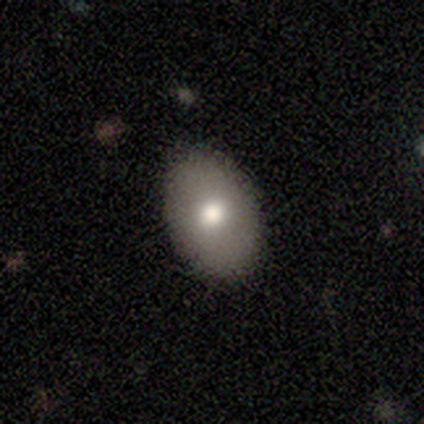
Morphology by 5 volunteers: A smooth galaxy with no disk features (80%) that is in between round and cigar-shaped (100%). Merging: none (100%).